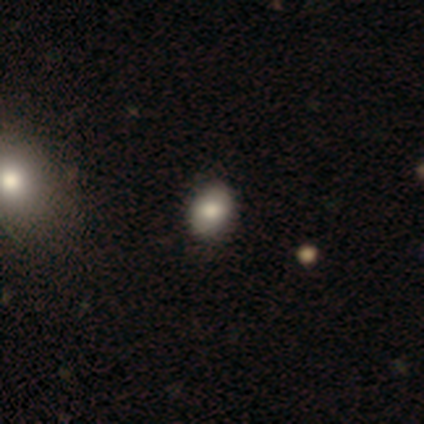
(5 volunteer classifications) A smooth galaxy with no disk features (80%) that is round (50%, tied with in between). Merging: none (75%).